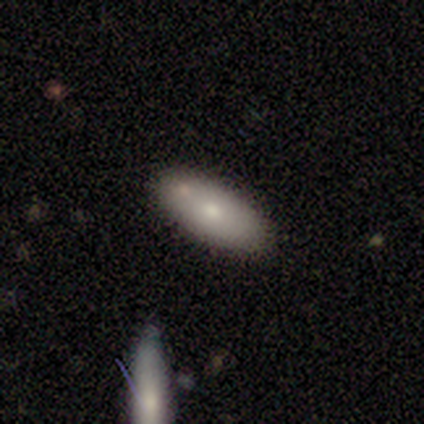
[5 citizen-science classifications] smooth-or-featured: smooth: 100% | featured or disk: 0% | star or artifact: 0%
  how-rounded: in between: 80% | cigar-shaped: 20% | round: 0%
  merging: none: 60% | merger: 40% | minor disturbance: 0% | major disturbance: 0%